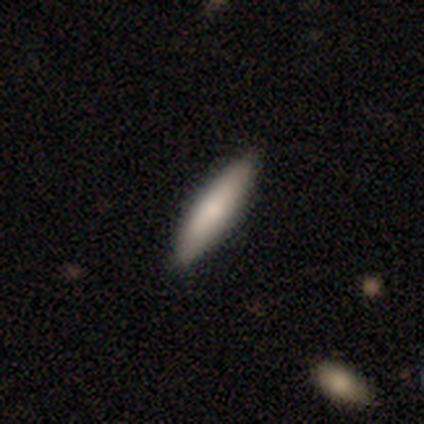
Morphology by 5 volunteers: This is clearly a smooth galaxy (80%). How rounded: likely cigar-shaped (75%). Merging: clearly none (80%).